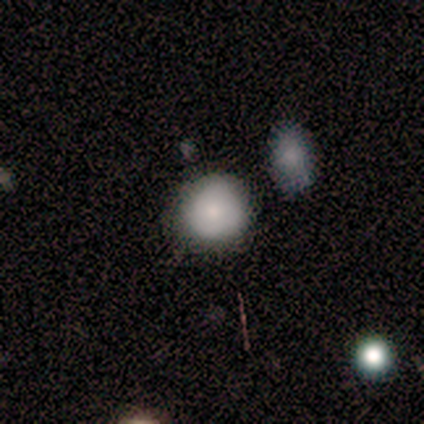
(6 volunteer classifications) Smooth or featured?
  - smooth: 67% *
  - featured or disk: 17%
  - star or artifact: 17%
How rounded?
  - round: 100% *
  - in between: 0%
  - cigar-shaped: 0%
Merging?
  - none: 100% *
  - minor disturbance: 0%
  - major disturbance: 0%
  - merger: 0%